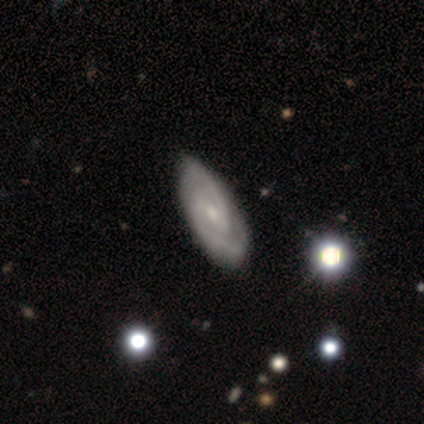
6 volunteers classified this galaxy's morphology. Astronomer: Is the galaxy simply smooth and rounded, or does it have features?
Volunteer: featured or disk — 83%.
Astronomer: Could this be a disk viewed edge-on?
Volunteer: no — 100%.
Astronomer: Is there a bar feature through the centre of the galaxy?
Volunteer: no — 60%.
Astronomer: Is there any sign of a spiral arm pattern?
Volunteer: yes — 100%.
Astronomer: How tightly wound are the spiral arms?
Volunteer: tight — 60% (runner-up: medium, 40%).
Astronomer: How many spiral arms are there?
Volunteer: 2 — 80%.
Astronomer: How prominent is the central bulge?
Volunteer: moderate — 60% (runner-up: small, 40%).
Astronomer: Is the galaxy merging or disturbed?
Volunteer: none — 100%.